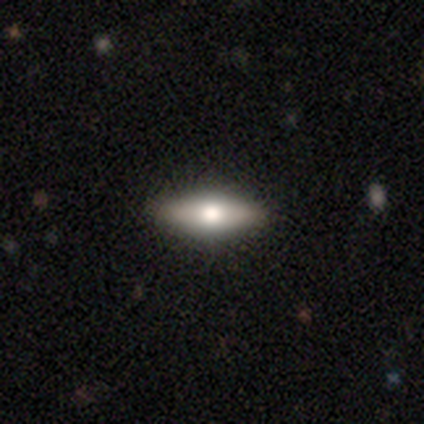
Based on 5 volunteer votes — A smooth galaxy with no disk features (60%) that is in between round and cigar-shaped (67%).

Vote fractions:
- Smooth or featured? smooth: 60% / featured or disk: 40% / star or artifact: 0%
- How rounded? in between: 67% / cigar-shaped: 33% / round: 0%
- Merging? none: 100% / minor disturbance: 0% / major disturbance: 0% / merger: 0%